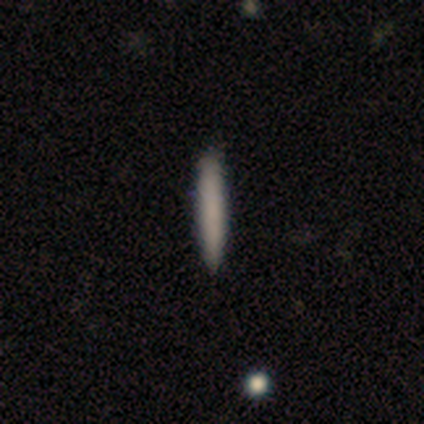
A smooth galaxy with no disk features (60%) that is cigar-shaped (100%). Merging: none (100%).